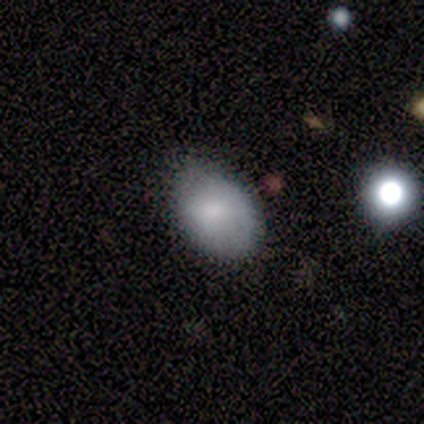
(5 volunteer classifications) Smooth or featured: smooth — 80% (featured or disk — 20%)
How rounded: in between — 100%
Merging: none — 60% (minor disturbance — 40%)